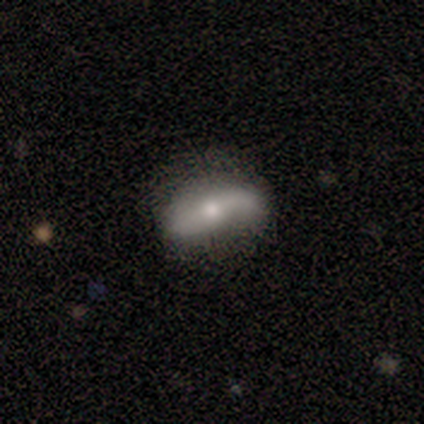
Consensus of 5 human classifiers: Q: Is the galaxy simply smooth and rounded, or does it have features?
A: smooth — 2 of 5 (40%, tied with featured or disk).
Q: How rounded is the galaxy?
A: in between — 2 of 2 (100%).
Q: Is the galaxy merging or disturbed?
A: none — 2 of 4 (50%, tied with minor disturbance).